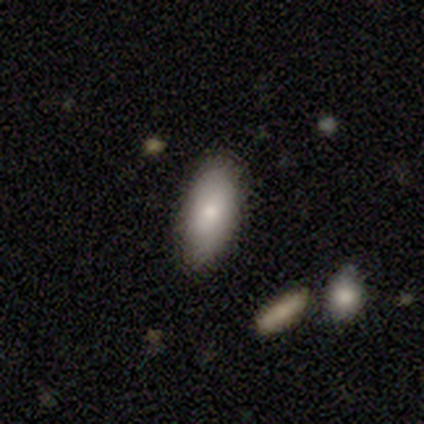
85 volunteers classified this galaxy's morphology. This is clearly a smooth galaxy (81%). How rounded: clearly in between (91%). Merging: likely none (72%).